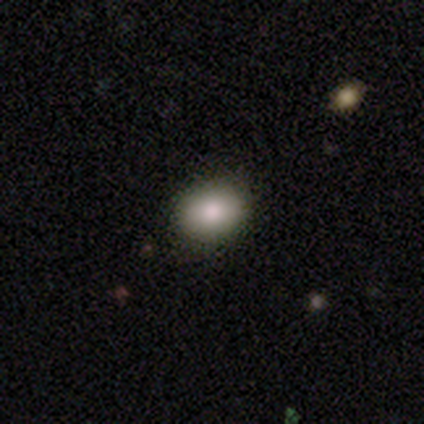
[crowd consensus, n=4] Overall: smooth (100%). How rounded: in between (100%). Merging: none (75%).